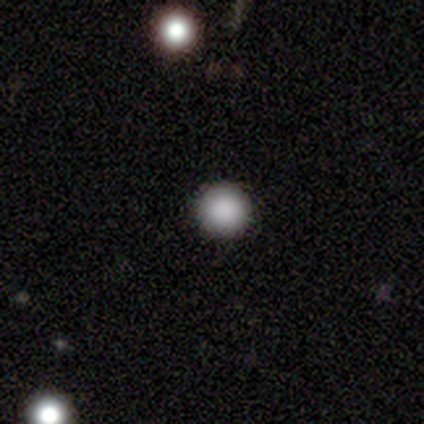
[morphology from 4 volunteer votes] A smooth galaxy with no disk features (100%) that is round (100%). Merging: none (100%).